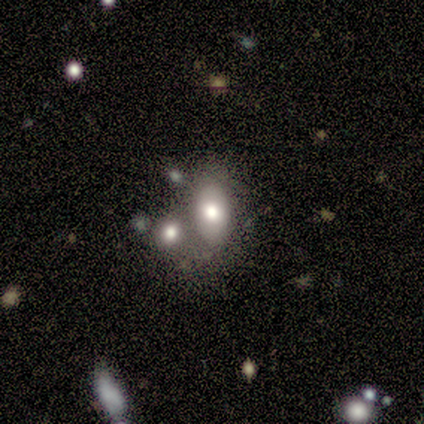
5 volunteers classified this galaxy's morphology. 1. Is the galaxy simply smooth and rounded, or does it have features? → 80% smooth, 20% star or artifact, 0% featured or disk.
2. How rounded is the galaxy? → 100% in between, 0% round, 0% cigar-shaped.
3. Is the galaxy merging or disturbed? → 50% none (tied), 50% merger (tied), 0% minor disturbance, 0% major disturbance.